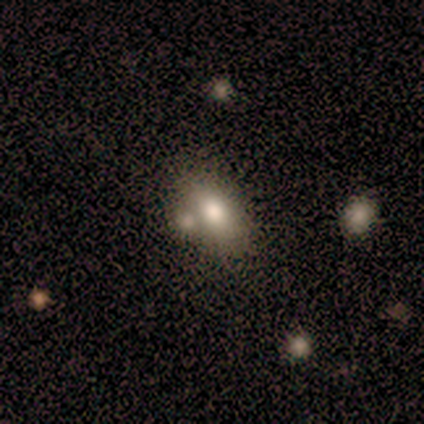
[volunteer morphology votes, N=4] smooth_or_featured: smooth (p=0.50) [alt: featured or disk p=0.25]
how_rounded: round (p=0.50) [tied with: in between p=0.50]
merging: none (p=0.67) [alt: minor disturbance p=0.33]